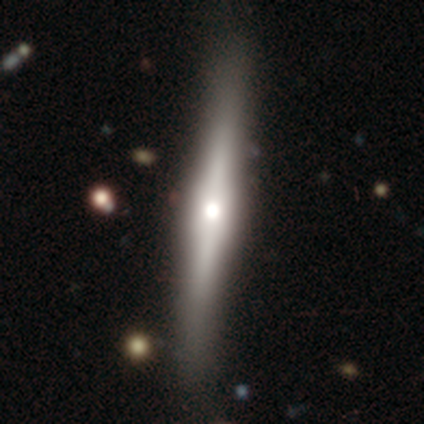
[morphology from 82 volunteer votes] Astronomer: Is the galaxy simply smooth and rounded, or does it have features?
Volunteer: featured or disk — 77%.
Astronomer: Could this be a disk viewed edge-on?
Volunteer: yes — 98%.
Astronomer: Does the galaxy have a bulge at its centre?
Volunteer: rounded — 85%.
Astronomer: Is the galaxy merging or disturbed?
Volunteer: none — 88%.